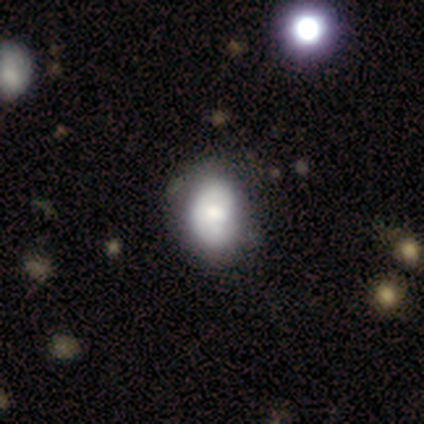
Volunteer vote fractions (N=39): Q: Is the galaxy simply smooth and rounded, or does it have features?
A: smooth — 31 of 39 (79%).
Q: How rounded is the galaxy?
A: in between — 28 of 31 (90%).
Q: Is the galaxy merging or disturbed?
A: none — 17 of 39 (44%).